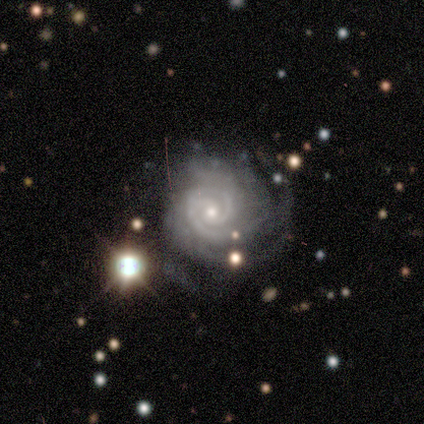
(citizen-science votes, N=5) smooth_or_featured: featured or disk (p=1.00)
disk_edge_on: no (p=1.00)
bar: no (p=0.60) [alt: weak p=0.40]
has_spiral_arms: yes (p=1.00)
spiral_winding: tight (p=0.80) [alt: medium p=0.20]
spiral_arm_count: 2 (p=1.00)
bulge_size: moderate (p=0.80) [alt: small p=0.20]
merging: none (p=0.60) [alt: minor disturbance p=0.20]